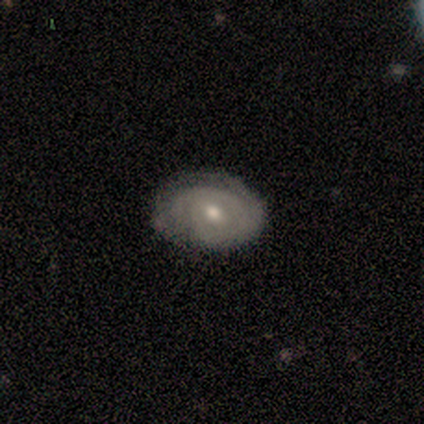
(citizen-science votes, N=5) A smooth galaxy with no disk features (60%) that is round (67%).

Vote fractions:
- Smooth or featured? smooth: 60% / featured or disk: 40% / star or artifact: 0%
- How rounded? round: 67% / in between: 33% / cigar-shaped: 0%
- Merging? none: 60% / minor disturbance: 40% / major disturbance: 0% / merger: 0%